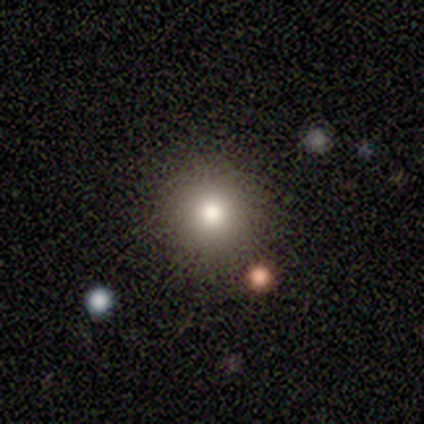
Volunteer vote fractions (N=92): Volunteers were most divided on "smooth or featured": smooth: 77%, star or artifact: 15%, featured or disk: 8%. More confident: how rounded — round (96%); merging — none (83%).